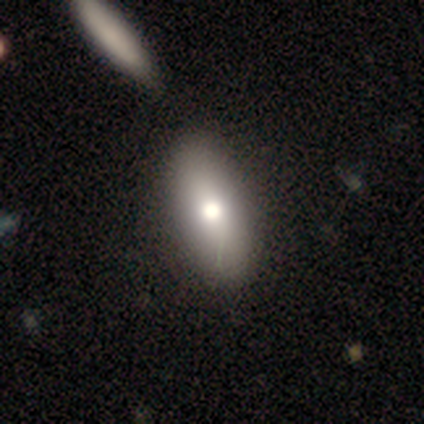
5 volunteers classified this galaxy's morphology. Q: Smooth or featured?
A: smooth (60%); runner-up: star or artifact (40%)
Q: How rounded?
A: in between (100%)
Q: Merging?
A: merger (67%); runner-up: none (33%)